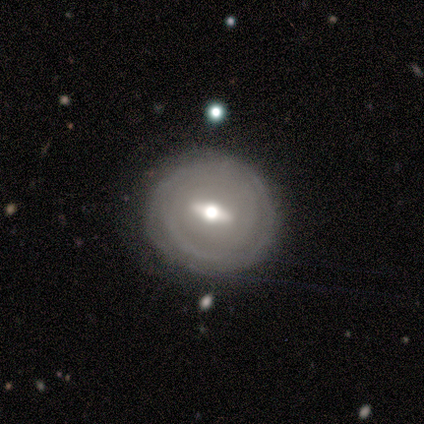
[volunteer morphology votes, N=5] Smooth or featured: featured or disk — 100%
Edge-on disk: no — 80% (yes — 20%)
Bar: weak — 50% (strong — 25%)
Spiral arms: no — 75% (yes — 25%)
Bulge size: moderate — 75% (small — 25%)
Merging: none — 60% (minor disturbance — 40%)